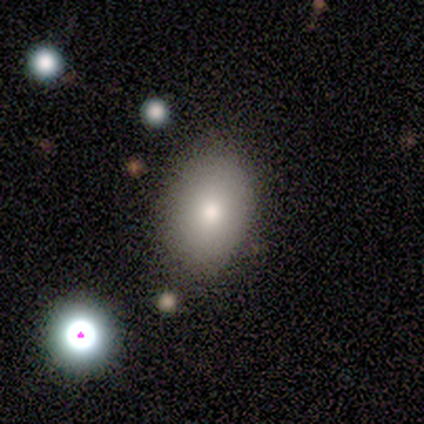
This is clearly a smooth galaxy (80%). How rounded: likely in between (75%). Merging: clearly none (80%).